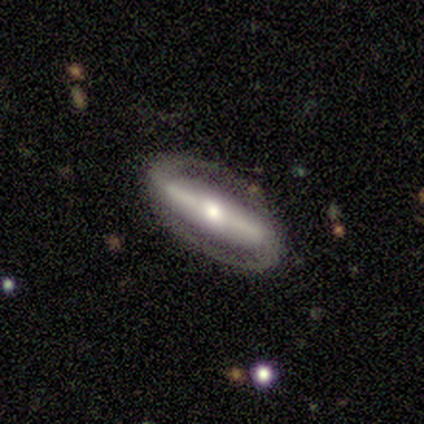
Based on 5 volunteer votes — featured or disk 60%, smooth 20%, star or artifact 20%. Down the decision tree: edge-on disk — no (67%); bar — strong (100%); spiral arms — yes (100%); spiral arm count — 2 (100%); spiral winding — tight (100%); bulge size — moderate (50%, tied with small); merging — none (100%).